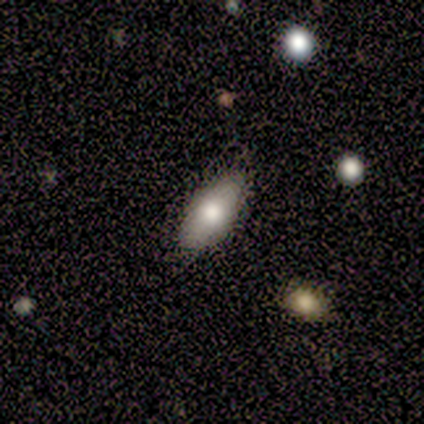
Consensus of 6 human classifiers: Overall: smooth (67%; featured or disk 33%). How rounded: in between (100%). Merging: none (50%, tied with minor disturbance).